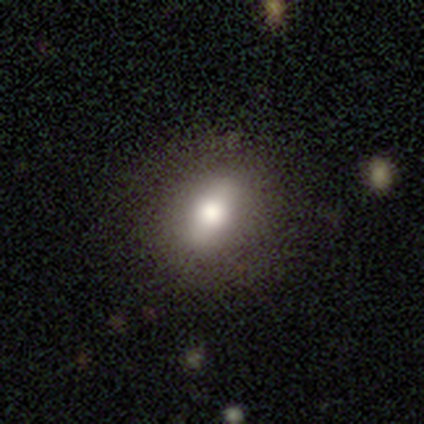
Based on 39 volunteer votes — Volunteers were most divided on "how rounded": in between: 54%, round: 35%, cigar-shaped: 12%. More confident: merging — none (86%); smooth or featured — smooth (67%).